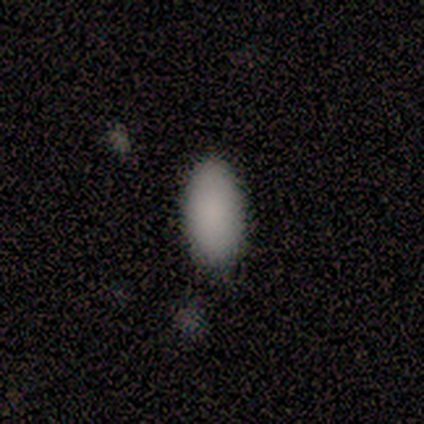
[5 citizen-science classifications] Smooth or featured: smooth — 100%
How rounded: in between — 100%
Merging: none — 60% (minor disturbance — 20%)